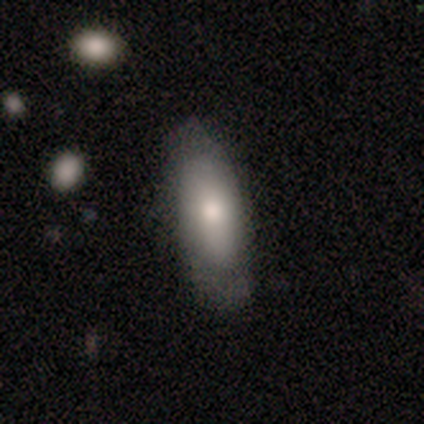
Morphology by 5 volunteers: A smooth galaxy with no disk features (80%) that is in between round and cigar-shaped (75%).

Vote fractions:
- Smooth or featured? smooth: 80% / featured or disk: 20% / star or artifact: 0%
- How rounded? in between: 75% / cigar-shaped: 25% / round: 0%
- Merging? none: 80% / minor disturbance: 20% / major disturbance: 0% / merger: 0%